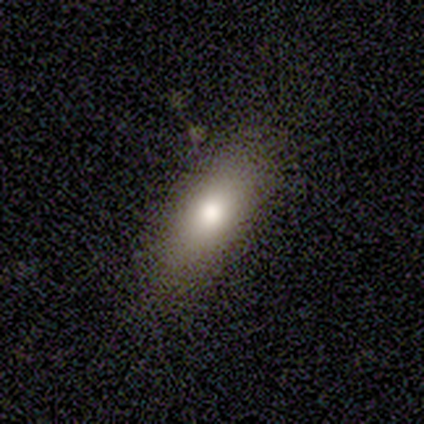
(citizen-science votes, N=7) This is likely a smooth galaxy (71%). How rounded: clearly in between (80%). Merging: clearly none (83%).